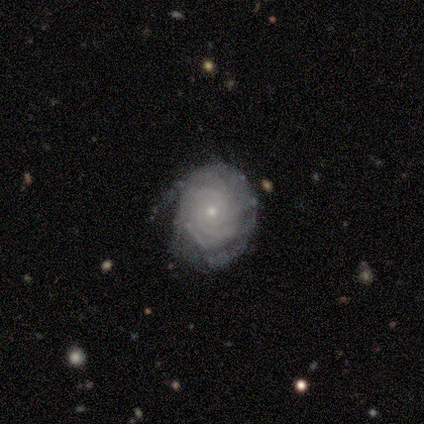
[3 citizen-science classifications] Consensus on every question: smooth or featured — featured or disk (100%); edge-on disk — no (100%); bar — no (100%); spiral arms — yes (100%); spiral winding — tight (100%); spiral arm count — can't tell (100%); bulge size — small (100%); merging — none (100%).